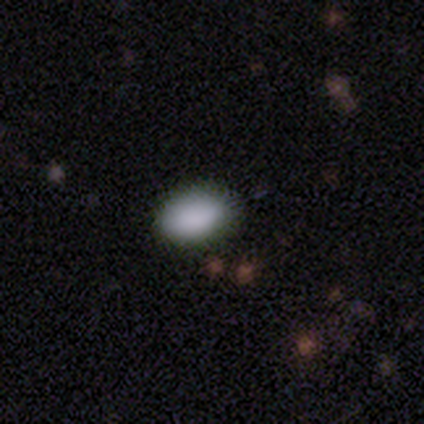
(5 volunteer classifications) This is clearly a smooth galaxy (100%). How rounded: clearly in between (100%). Merging: clearly none (80%).